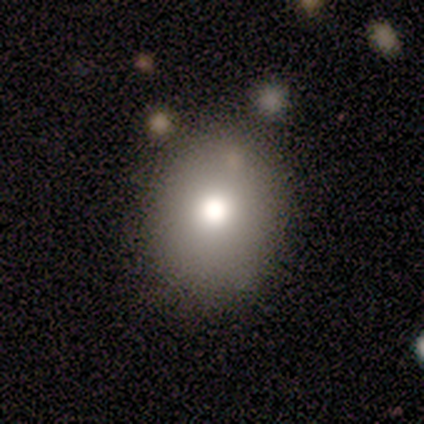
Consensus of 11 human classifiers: Smooth or featured: smooth — 55% (featured or disk — 27%)
How rounded: round — 83% (in between — 17%)
Merging: none — 78% (major disturbance — 22%)